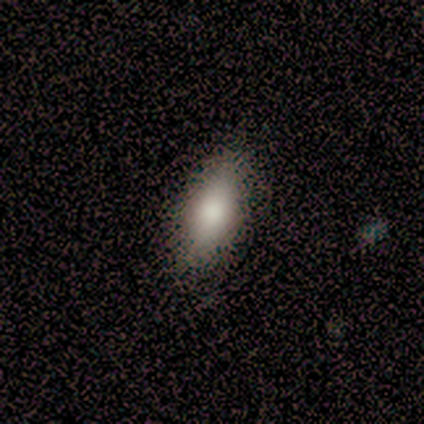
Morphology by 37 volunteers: Smooth or featured? smooth (92%)
How rounded? in between (82%)
Merging? none (62%)